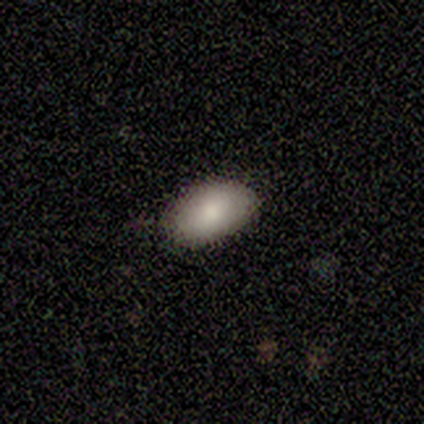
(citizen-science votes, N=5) Morphology: type=smooth (100%); roundness=in between (100%); merging=none (80%).